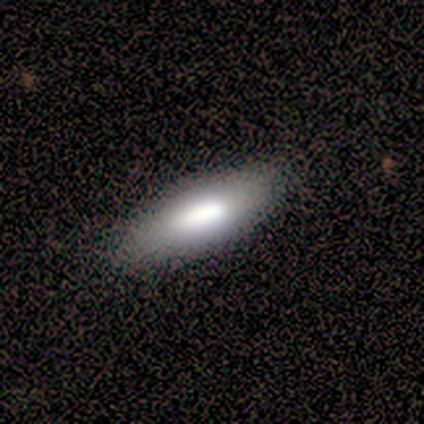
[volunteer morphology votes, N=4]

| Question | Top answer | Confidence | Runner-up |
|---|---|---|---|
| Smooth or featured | smooth | 100% | — |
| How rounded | in between | 100% | — |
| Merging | none | 100% | — |